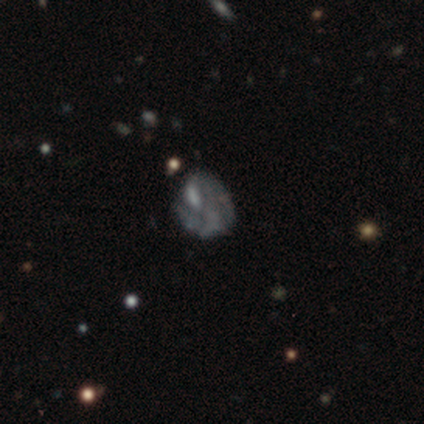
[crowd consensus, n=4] Smooth or featured? 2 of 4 (50%) said smooth. How rounded? 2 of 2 (100%) said round. Merging? 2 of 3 (67%) said none.